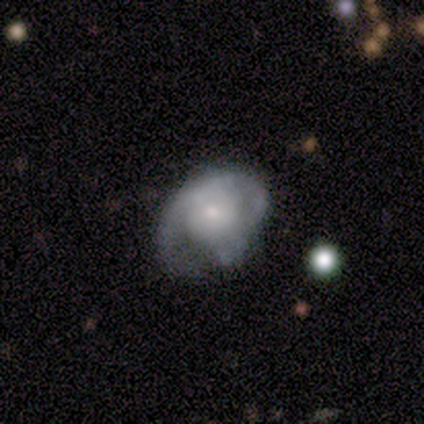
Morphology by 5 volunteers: type=featured or disk (60%); edge-on=no (100%); bar=no (67%); spiral arms=no (100%); bulge=moderate (33%, tied with small and none); merging=minor disturbance (75%).